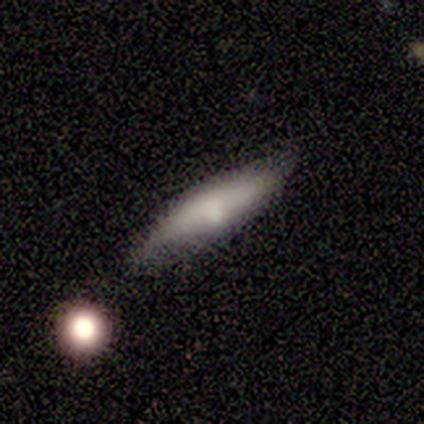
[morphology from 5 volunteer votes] This appears to be a featured or disk galaxy (60%) viewed edge-on (67%) with no central bulge (100%). Merging: minor disturbance (60%).